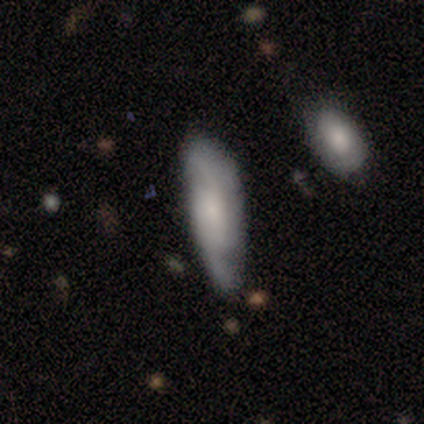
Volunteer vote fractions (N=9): Morphology: type=featured or disk (67%); edge-on=no (100%); bar=no (83%); spiral arms=yes (100%); winding=tight (50%, tied with medium); arm count=2 (83%); bulge=small (50%); merging=none (56%).